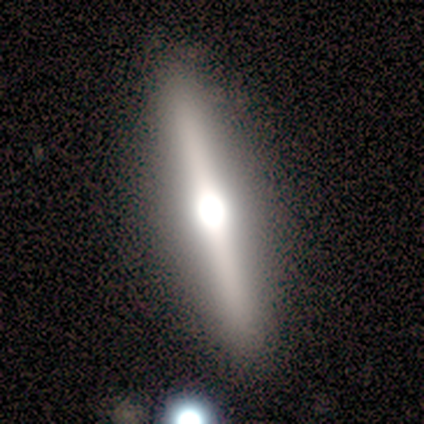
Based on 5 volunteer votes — Smooth or featured? featured or disk (80%)
Edge-on disk? yes (100%)
Edge-on bulge? rounded (75%)
Merging? none (80%)